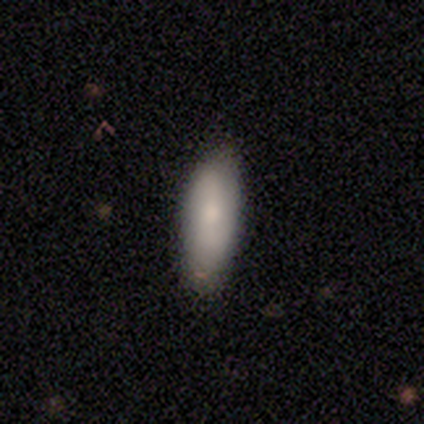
smooth_or_featured: smooth (p=0.80) [alt: star or artifact p=0.20]
how_rounded: in between (p=0.75) [alt: cigar-shaped p=0.25]
merging: none (p=0.75) [alt: minor disturbance p=0.25]